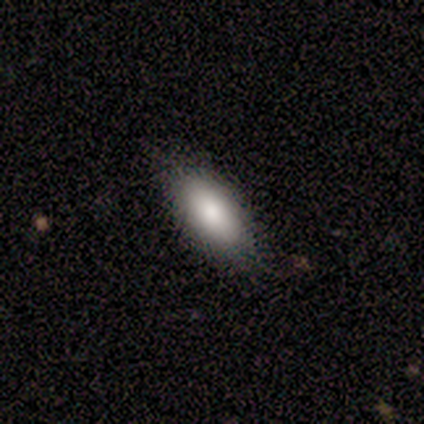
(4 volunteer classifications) Morphology: type=featured or disk (75%); edge-on=no (67%); bar=strong (50%, tied with weak); spiral arms=yes (50%, tied with no); winding=tight (100%); arm count=more than 4 (100%); bulge=dominant (50%, tied with moderate); merging=none (75%).